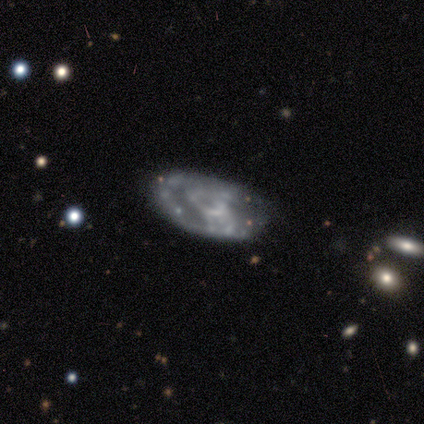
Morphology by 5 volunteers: A featured or disk galaxy (100%) with no bar (100%), no spiral arms (80%) and no central bulge (100%). Merging: none (80%).